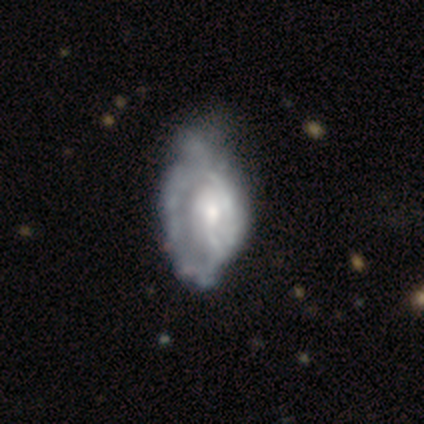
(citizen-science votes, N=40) A featured or disk galaxy (88%) with no bar (76%), tight (45%) spiral arms (59%) and a moderate central bulge (50%).

Vote fractions:
- Smooth or featured? featured or disk: 88% / smooth: 10% / star or artifact: 2%
- Edge-on disk? no: 97% / yes: 3%
- Bar? no: 76% / weak: 24% / strong: 0%
- Spiral arms? yes: 59% / no: 41%
- Spiral winding? tight: 45% / medium: 40% / loose: 15%
- Spiral arm count? can't tell: 65% / 2: 20% / 1: 15% / 3: 0% / 4: 0% / more than 4: 0%
- Bulge size? moderate: 50% / small: 44% / dominant: 3% / none: 3% / large: 0%
- Merging? minor disturbance: 28% / none: 21% / major disturbance: 21% / merger: 3%